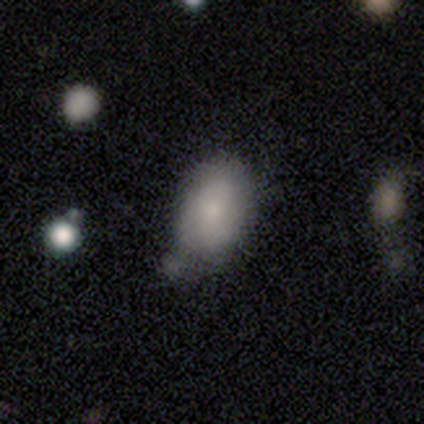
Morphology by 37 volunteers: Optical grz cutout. It shows a smooth galaxy with no disk features (92%) that is in between round and cigar-shaped (74%). Merging: none (46%).